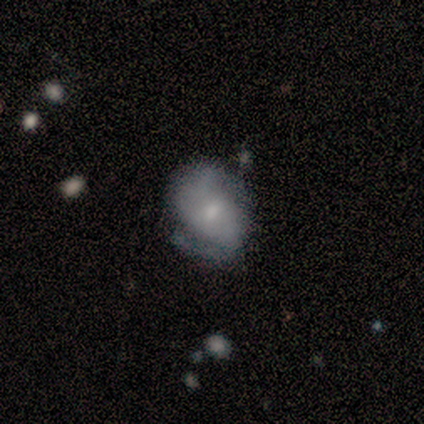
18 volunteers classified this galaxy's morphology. type=featured or disk (83%); edge-on=no (100%); bar=no (73%); spiral arms=yes (60%); winding=medium (56%); arm count=2 (78%); bulge=small (47%); merging=none (72%).